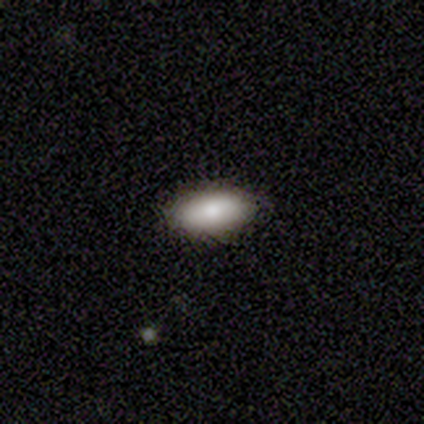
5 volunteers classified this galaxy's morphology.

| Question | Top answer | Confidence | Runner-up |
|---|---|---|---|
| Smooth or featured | smooth | 60% | star or artifact (40%) |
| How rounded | in between | 100% | — |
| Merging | none | 100% | — |